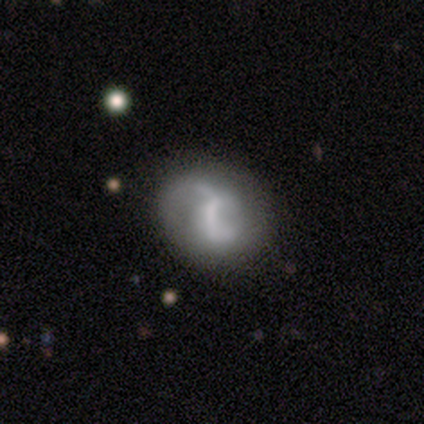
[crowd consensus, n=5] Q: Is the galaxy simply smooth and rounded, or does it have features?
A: featured or disk — 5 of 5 (100%).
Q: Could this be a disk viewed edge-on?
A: no — 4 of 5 (80%).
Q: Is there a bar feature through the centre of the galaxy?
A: strong — 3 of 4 (75%).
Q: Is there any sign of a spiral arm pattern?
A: yes — 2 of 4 (50%, tied with no).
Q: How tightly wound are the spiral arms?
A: medium — 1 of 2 (50%, tied with loose).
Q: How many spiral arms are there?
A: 2 — 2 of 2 (100%).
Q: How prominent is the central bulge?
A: moderate — 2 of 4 (50%, tied with none).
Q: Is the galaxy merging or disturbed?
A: none — 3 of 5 (60%).